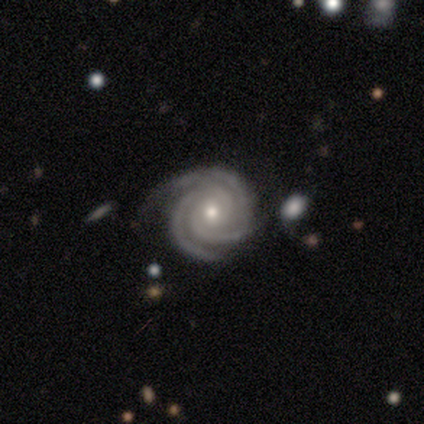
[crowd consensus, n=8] Smooth or featured?
  - featured or disk: 100% *
  - smooth: 0%
  - star or artifact: 0%
Edge-on disk?
  - no: 100% *
  - yes: 0%
Bar?
  - no: 88% *
  - weak: 12%
  - strong: 0%
Spiral arms?
  - yes: 100% *
  - no: 0%
Spiral winding?
  - tight: 100% *
  - medium: 0%
  - loose: 0%
Spiral arm count?
  - 2: 50% * (tied)
  - 3: 50% * (tied)
  - 1: 0%
  - 4: 0%
  - more than 4: 0%
  - can't tell: 0%
Bulge size?
  - small: 75% *
  - moderate: 25%
  - dominant: 0%
  - large: 0%
  - none: 0%
Merging?
  - none: 75% *
  - minor disturbance: 25%
  - major disturbance: 0%
  - merger: 0%